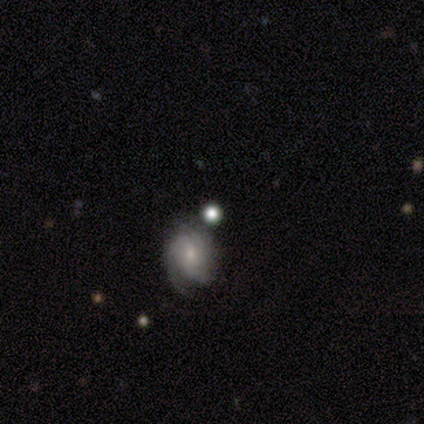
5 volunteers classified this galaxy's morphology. Volunteers were most divided on "merging": none: 50%, minor disturbance: 25%, merger: 25%, major disturbance: 0%. More confident: bar — no (100%); spiral arms — yes (100%); spiral winding — tight (100%); bulge size — small (100%); smooth or featured — featured or disk (80%); edge-on disk — no (75%); spiral arm count — 2 (67%).